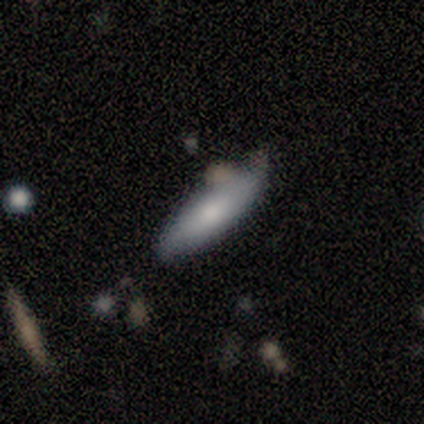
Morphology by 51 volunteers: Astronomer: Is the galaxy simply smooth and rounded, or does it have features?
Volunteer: smooth — 78%.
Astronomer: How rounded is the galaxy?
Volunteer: cigar-shaped — 57% (runner-up: in between, 42%).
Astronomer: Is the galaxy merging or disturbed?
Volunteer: none — 67%.